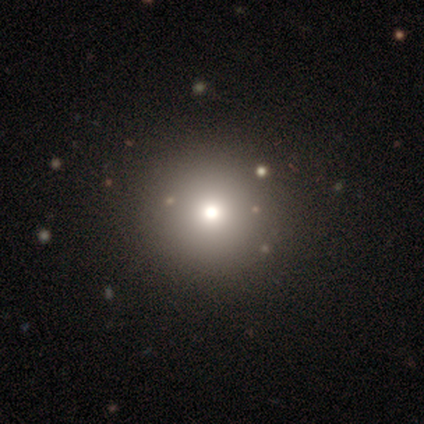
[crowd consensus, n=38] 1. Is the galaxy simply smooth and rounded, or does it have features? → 66% smooth, 21% star or artifact, 13% featured or disk.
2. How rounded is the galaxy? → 96% round, 4% in between, 0% cigar-shaped.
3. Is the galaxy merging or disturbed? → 90% none, 3% minor disturbance, 3% major disturbance, 3% merger.